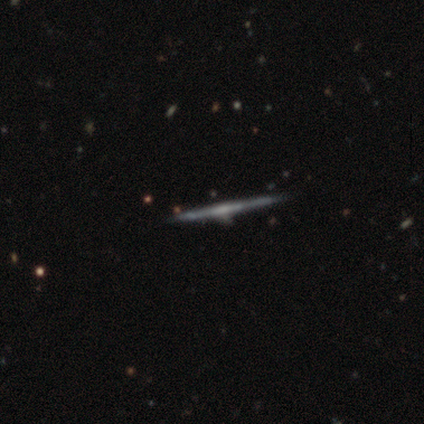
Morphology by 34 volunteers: A featured or disk galaxy (76%) viewed edge-on (100%) with no central bulge (50%).

Vote fractions:
- Smooth or featured? featured or disk: 76% / smooth: 18% / star or artifact: 6%
- Edge-on disk? yes: 100% / no: 0%
- Edge-on bulge? none: 50% / rounded: 31% / boxy: 19%
- Merging? none: 91% / minor disturbance: 6% / merger: 3% / major disturbance: 0%